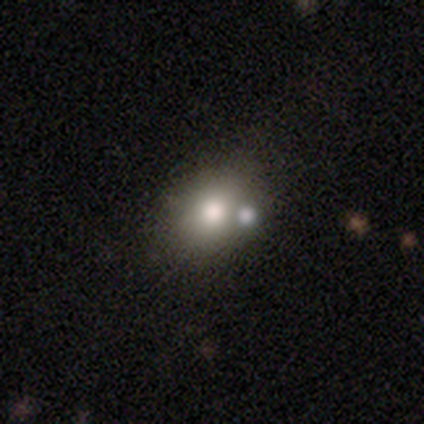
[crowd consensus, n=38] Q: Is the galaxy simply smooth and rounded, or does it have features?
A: smooth — 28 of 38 (74%).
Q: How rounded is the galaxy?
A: in between — 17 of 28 (61%).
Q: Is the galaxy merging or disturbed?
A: none — 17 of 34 (50%).